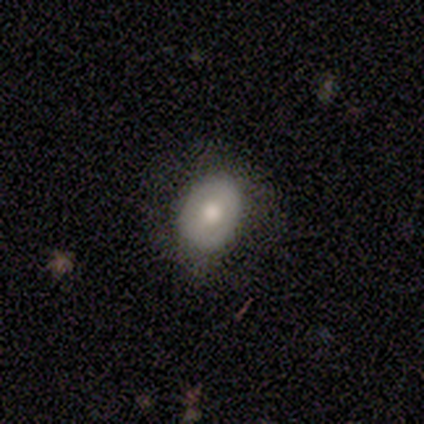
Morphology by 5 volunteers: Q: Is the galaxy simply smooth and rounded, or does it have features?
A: smooth — 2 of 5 (40%, tied with featured or disk).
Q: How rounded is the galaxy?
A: in between — 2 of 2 (100%).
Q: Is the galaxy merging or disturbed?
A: none — 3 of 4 (75%).